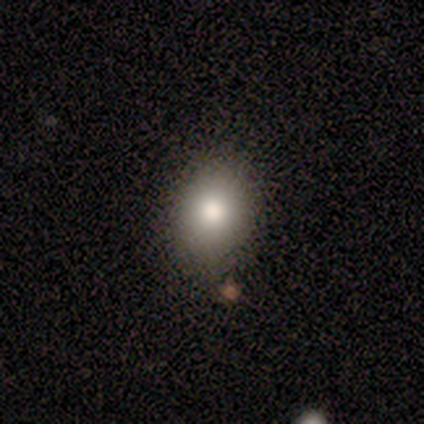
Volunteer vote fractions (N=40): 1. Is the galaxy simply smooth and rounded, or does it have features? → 82% smooth, 10% star or artifact, 8% featured or disk.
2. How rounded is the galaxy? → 52% in between, 48% round, 0% cigar-shaped.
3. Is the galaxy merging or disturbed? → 81% none, 17% minor disturbance, 3% major disturbance, 0% merger.